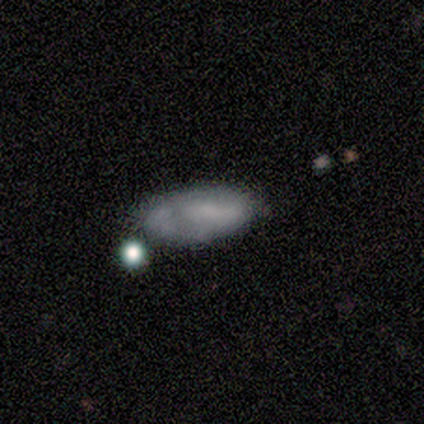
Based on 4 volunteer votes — smooth-or-featured: smooth: 75% | featured or disk: 25% | star or artifact: 0%
  how-rounded: in between: 100% | round: 0% | cigar-shaped: 0%
  merging: none: 100% | minor disturbance: 0% | major disturbance: 0% | merger: 0%